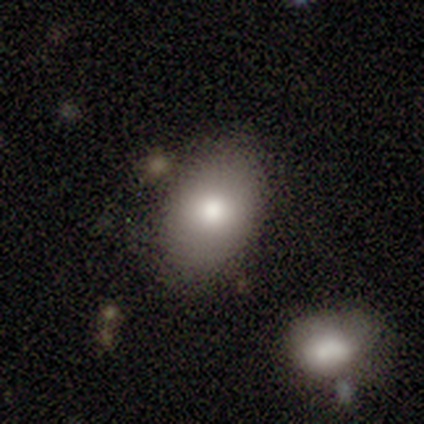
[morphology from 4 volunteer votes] Smooth or featured?
  - smooth: 75% *
  - star or artifact: 25%
  - featured or disk: 0%
How rounded?
  - in between: 67% *
  - round: 33%
  - cigar-shaped: 0%
Merging?
  - none: 67% *
  - minor disturbance: 33%
  - major disturbance: 0%
  - merger: 0%